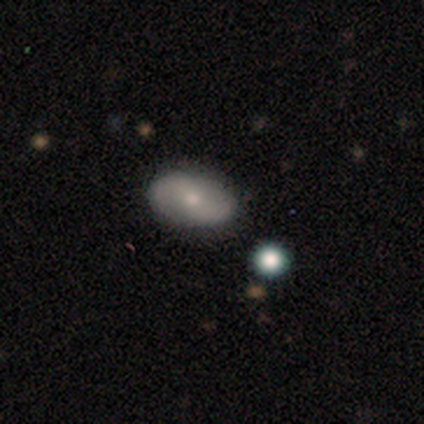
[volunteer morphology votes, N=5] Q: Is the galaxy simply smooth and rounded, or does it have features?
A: smooth — 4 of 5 (80%).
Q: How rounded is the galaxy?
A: in between — 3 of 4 (75%).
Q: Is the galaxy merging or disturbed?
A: none — 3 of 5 (60%).